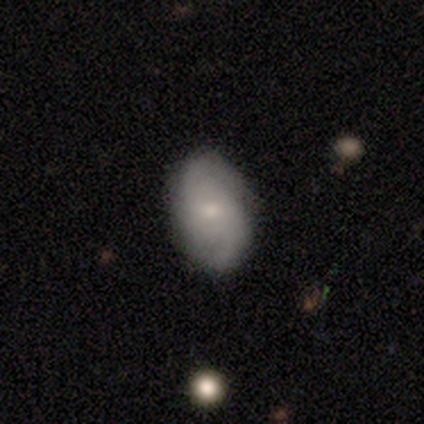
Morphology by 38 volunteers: Smooth or featured: featured or disk — 66% (smooth — 32%)
Edge-on disk: no — 100%
Bar: no — 72% (weak — 28%)
Spiral arms: yes — 92% (no — 8%)
Spiral winding: medium — 48% (loose — 35%)
Spiral arm count: 2 — 65% (can't tell — 17%)
Bulge size: small — 56% (moderate — 40%)
Merging: none — 73% (minor disturbance — 27%)